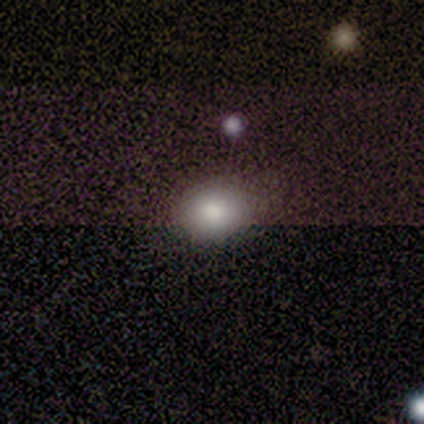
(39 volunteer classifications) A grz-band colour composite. It shows a smooth galaxy with no disk features (72%) that is round (57%). Merging: none (76%).